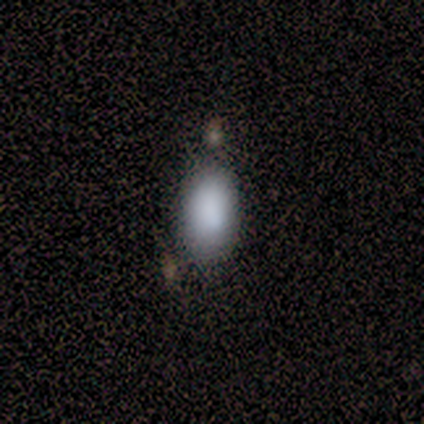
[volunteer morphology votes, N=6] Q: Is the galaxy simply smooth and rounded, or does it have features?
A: smooth — 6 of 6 (100%).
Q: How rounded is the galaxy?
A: in between — 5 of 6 (83%).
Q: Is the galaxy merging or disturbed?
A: none — 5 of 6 (83%).